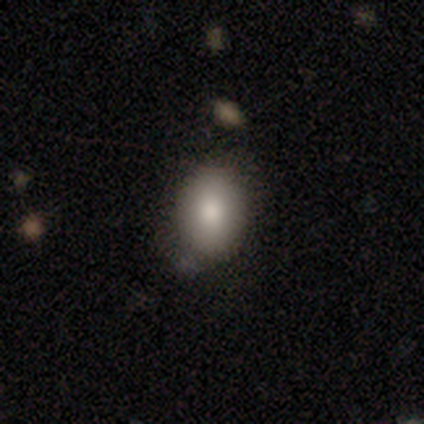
A smooth galaxy with no disk features (91%) that is in between round and cigar-shaped (69%). Merging: none (80%).